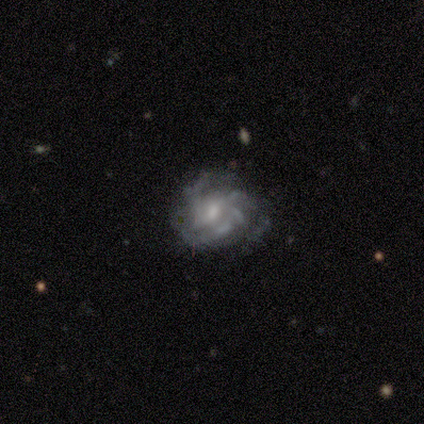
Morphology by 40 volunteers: Volunteers were most divided on "spiral arm count": can't tell: 40%, 3: 34%, 4: 20%, 2: 3%, more than 4: 3%, 1: 0%. Remaining: spiral arms — yes (100%); edge-on disk — no (97%); smooth or featured — featured or disk (90%); bar — no (66%); bulge size — moderate (60%); spiral winding — medium (51%); merging — none (36%).